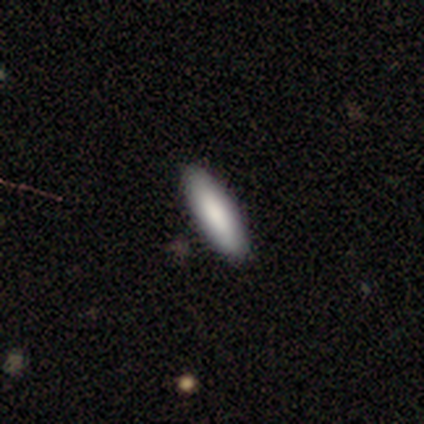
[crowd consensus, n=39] This is clearly a smooth galaxy (87%). How rounded: possibly in between (50%, tied with cigar-shaped). Merging: likely none (72%).